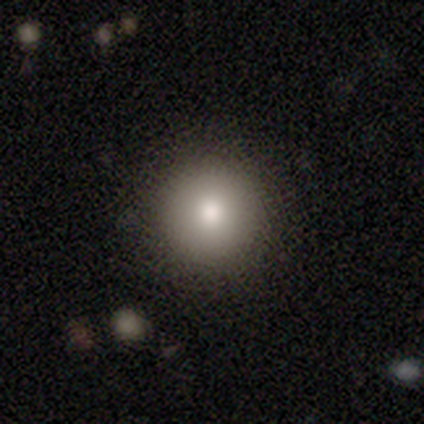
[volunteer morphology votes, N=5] Consensus on every question: smooth or featured — smooth (100%); how rounded — round (100%); merging — none (100%).